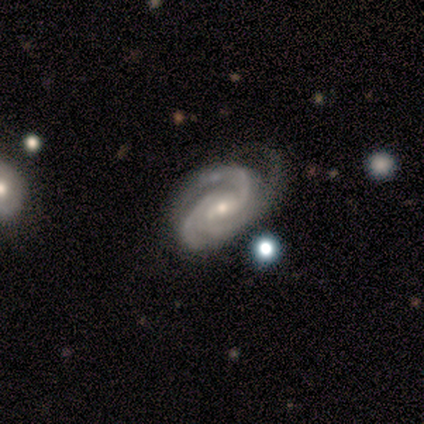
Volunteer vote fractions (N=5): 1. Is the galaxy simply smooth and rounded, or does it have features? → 80% featured or disk, 20% smooth, 0% star or artifact.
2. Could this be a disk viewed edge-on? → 100% no, 0% yes.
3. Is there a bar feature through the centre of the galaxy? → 75% no, 25% weak, 0% strong.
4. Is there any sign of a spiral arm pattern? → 100% yes, 0% no.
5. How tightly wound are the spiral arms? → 50% tight (tied), 50% medium (tied), 0% loose.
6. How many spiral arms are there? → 50% 3, 25% 4, 25% can't tell, 0% 1, 0% 2, 0% more than 4.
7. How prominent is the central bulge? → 100% small, 0% dominant, 0% large, 0% moderate, 0% none.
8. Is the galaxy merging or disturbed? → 60% none, 40% minor disturbance, 0% major disturbance, 0% merger.